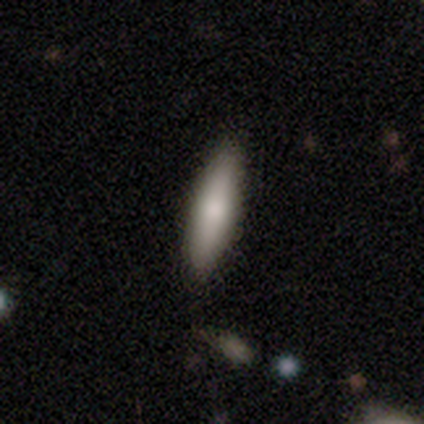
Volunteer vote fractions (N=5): A smooth galaxy with no disk features (80%) that is in between round and cigar-shaped (50%, tied with cigar-shaped). Merging: none (100%).